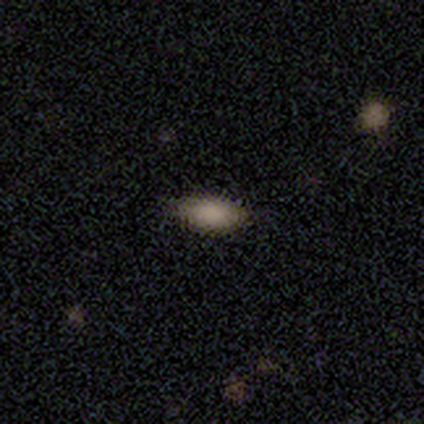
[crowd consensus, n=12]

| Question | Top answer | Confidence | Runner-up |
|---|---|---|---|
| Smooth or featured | smooth | 75% | star or artifact (25%) |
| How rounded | in between | 100% | — |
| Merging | none | 78% | minor disturbance (11%) |